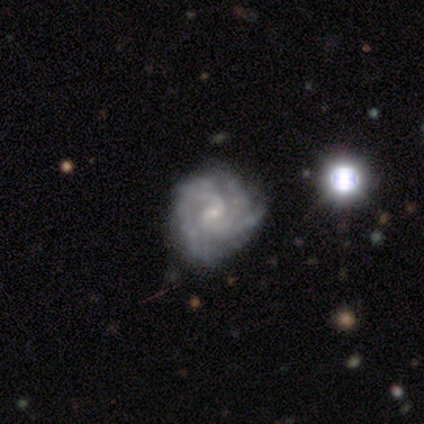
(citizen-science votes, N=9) featured or disk 100%, smooth 0%, star or artifact 0%. Down the decision tree: edge-on disk — no (100%); bar — no (67%); spiral arms — yes (100%); spiral arm count — 2 (67%); spiral winding — tight (56%); bulge size — small (78%); merging — none (89%).